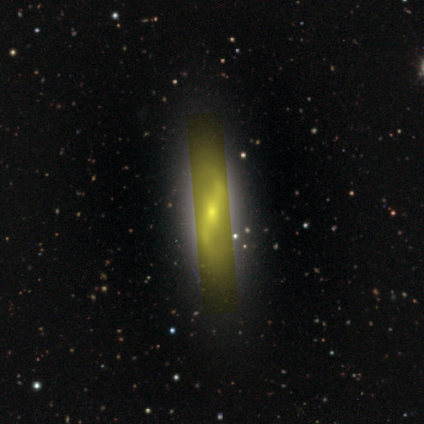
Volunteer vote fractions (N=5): Smooth or featured?
  - star or artifact: 60% *
  - featured or disk: 40%
  - smooth: 0%